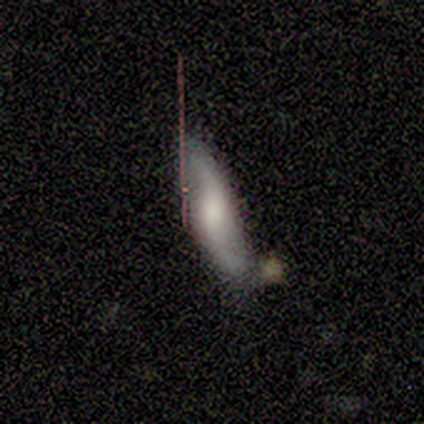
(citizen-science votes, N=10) smooth-or-featured: smooth: 60% | featured or disk: 40% | star or artifact: 0%
  how-rounded: cigar-shaped: 67% | in between: 33% | round: 0%
  merging: none: 80% | minor disturbance: 20% | major disturbance: 0% | merger: 0%